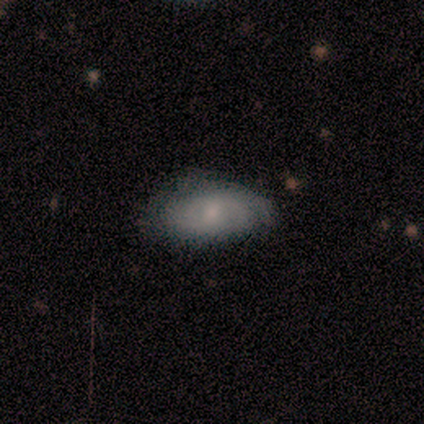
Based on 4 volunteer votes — smooth-or-featured: smooth: 75% | featured or disk: 25% | star or artifact: 0%
  how-rounded: in between: 100% | round: 0% | cigar-shaped: 0%
  merging: none: 100% | minor disturbance: 0% | major disturbance: 0% | merger: 0%